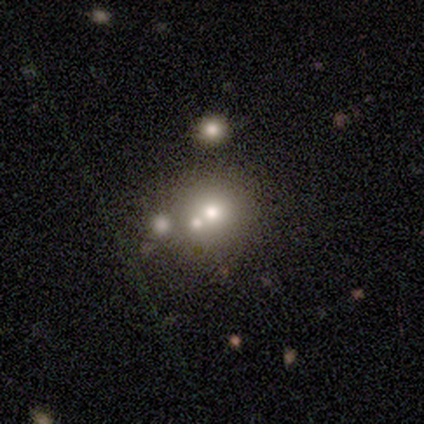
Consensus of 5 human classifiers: Morphology: type=smooth (40%, tied with star or artifact); roundness=in between (100%); merging=none (33%, tied with minor disturbance and merger).